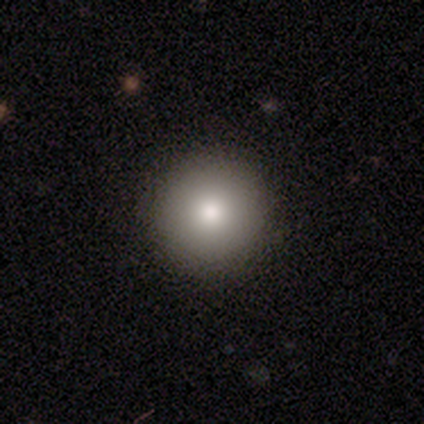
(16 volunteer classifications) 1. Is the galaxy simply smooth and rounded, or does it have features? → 81% smooth, 12% featured or disk, 6% star or artifact.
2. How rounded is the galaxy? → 100% round, 0% in between, 0% cigar-shaped.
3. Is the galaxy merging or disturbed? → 93% none, 7% minor disturbance, 0% major disturbance, 0% merger.